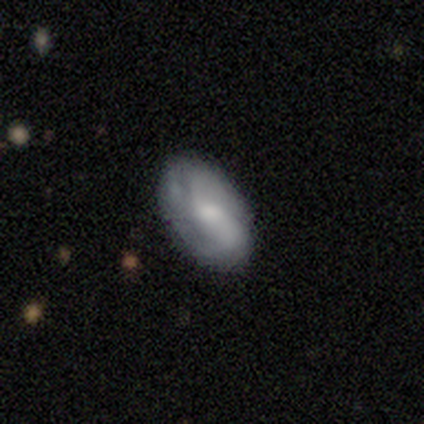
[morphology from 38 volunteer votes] This is possibly a smooth galaxy (50%). How rounded: clearly in between (100%). Merging: possibly none (53%).